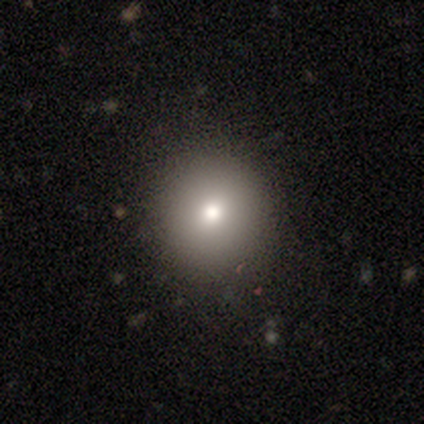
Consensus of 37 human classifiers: This appears to be a smooth galaxy with no disk features (65%) that is round (96%). Merging: none (89%).